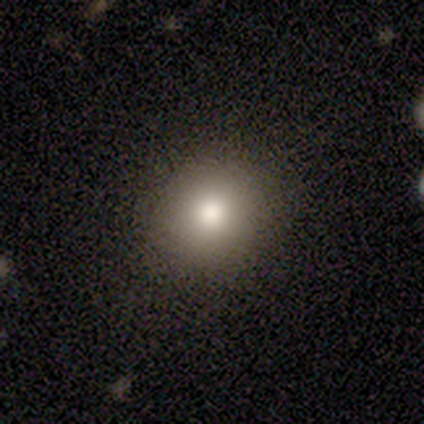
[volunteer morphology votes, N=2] A smooth galaxy with no disk features (100%) that is round (50%, tied with in between). Merging: none (100%).